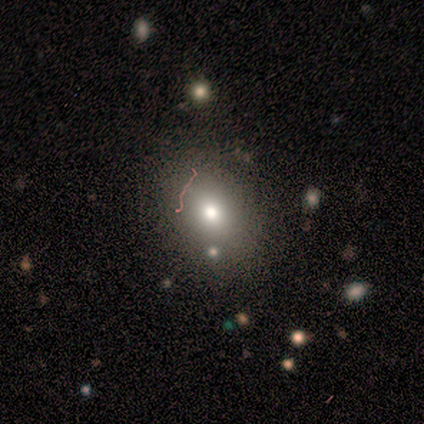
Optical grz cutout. It shows a smooth galaxy with no disk features (80%) that is round (100%). Merging: none (80%).